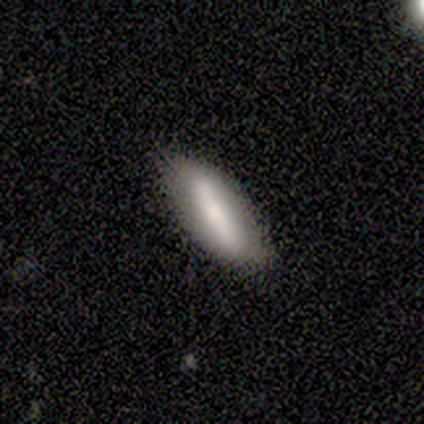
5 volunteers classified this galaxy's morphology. smooth_or_featured: smooth (p=0.60) [alt: featured or disk p=0.20]
how_rounded: in between (p=0.67) [alt: cigar-shaped p=0.33]
merging: none (p=0.75) [alt: minor disturbance p=0.25]